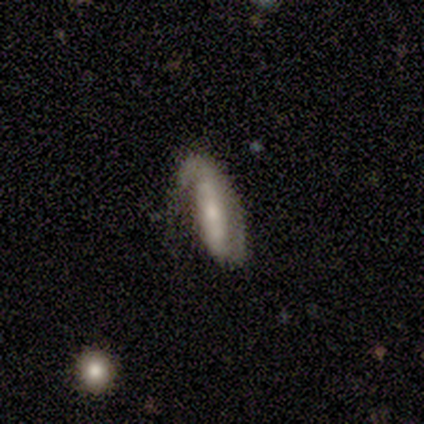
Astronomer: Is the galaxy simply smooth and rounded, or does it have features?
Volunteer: featured or disk — 80%.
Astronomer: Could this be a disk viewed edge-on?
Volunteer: no — 100%.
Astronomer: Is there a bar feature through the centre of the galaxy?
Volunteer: weak — 75%.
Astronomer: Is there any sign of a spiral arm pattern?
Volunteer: yes — 100%.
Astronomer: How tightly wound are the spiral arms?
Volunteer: tight — 50%.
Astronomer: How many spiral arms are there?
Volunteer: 1 — 50%, tied with 2 at 50%.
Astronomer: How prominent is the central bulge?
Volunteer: moderate — 50%.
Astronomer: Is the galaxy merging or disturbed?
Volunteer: none — 40%, tied with major disturbance at 40%.